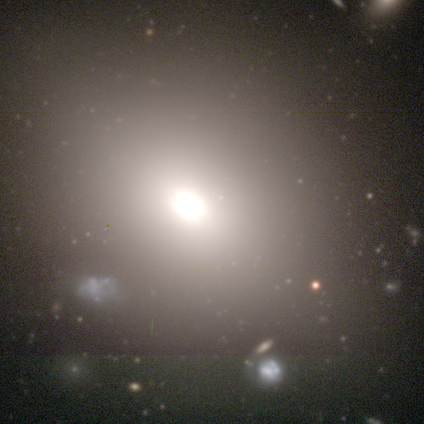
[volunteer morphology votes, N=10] smooth-or-featured: smooth: 80% | star or artifact: 20% | featured or disk: 0%
  how-rounded: round: 50% (tied) | in between: 50% (tied) | cigar-shaped: 0%
  merging: none: 88% | minor disturbance: 12% | major disturbance: 0% | merger: 0%